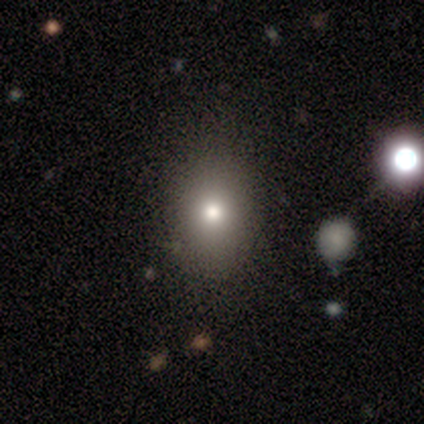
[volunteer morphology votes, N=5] Volunteers were most divided on "smooth or featured": smooth: 80%, star or artifact: 20%, featured or disk: 0%. More confident: how rounded — in between (100%); merging — none (100%).